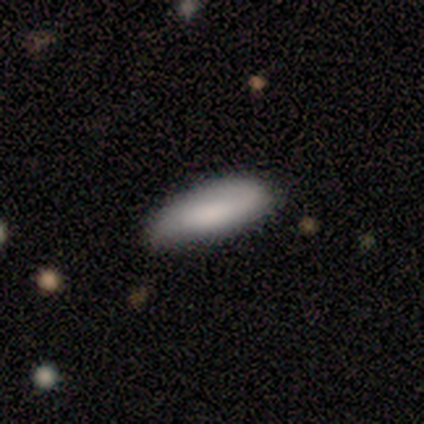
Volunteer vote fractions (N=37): Smooth or featured?
  - smooth: 78% *
  - featured or disk: 19%
  - star or artifact: 3%
How rounded?
  - in between: 62% *
  - cigar-shaped: 34%
  - round: 3%
Merging?
  - none: 86% *
  - minor disturbance: 14%
  - major disturbance: 0%
  - merger: 0%